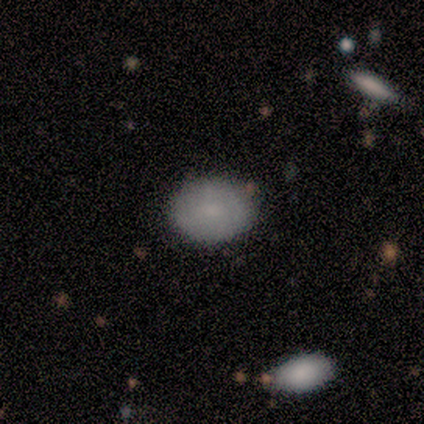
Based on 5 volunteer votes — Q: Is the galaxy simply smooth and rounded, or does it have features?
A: smooth — 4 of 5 (80%).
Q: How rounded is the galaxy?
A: in between — 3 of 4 (75%).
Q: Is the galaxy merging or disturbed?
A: none — 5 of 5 (100%).